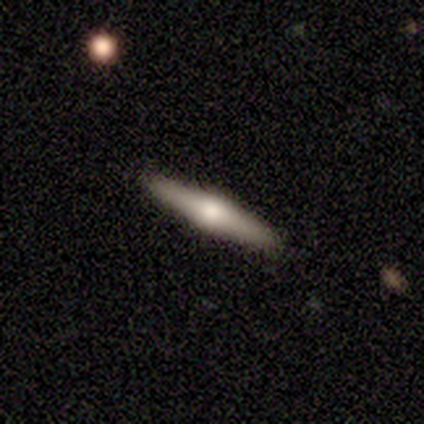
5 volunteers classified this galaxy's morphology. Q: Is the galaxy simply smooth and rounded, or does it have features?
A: smooth — 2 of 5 (40%, tied with featured or disk).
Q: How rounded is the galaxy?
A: cigar-shaped — 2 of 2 (100%).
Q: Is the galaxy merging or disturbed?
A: none — 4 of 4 (100%).